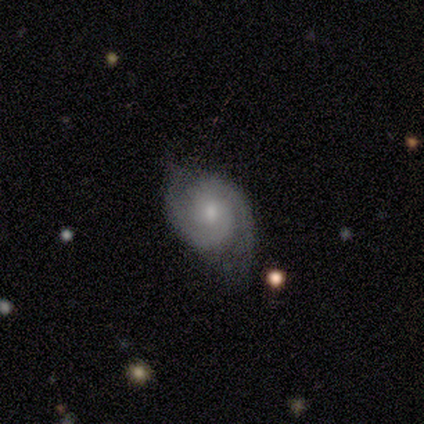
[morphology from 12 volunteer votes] featured or disk 75%, smooth 17%, star or artifact 8%. Down the decision tree: edge-on disk — no (89%); bar — no (75%); spiral arms — yes (100%); spiral arm count — 2 (88%); spiral winding — tight (50%, tied with medium); bulge size — small (88%); merging — none (64%).